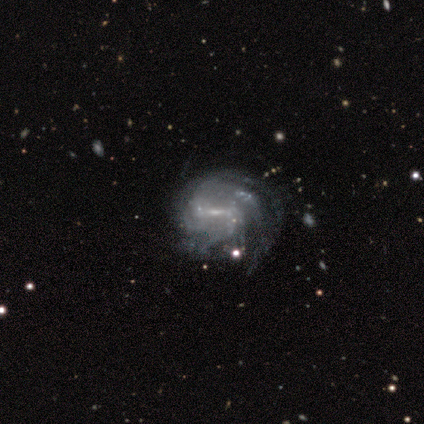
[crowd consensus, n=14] Smooth or featured? 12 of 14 (86%) said featured or disk. Edge-on disk? 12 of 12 (100%) said no. Bar? 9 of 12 (75%) said weak. Spiral arms? 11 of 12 (92%) said yes. Spiral winding? 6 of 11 (55%) said tight. Spiral arm count? 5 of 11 (45%) said can't tell. Bulge size? 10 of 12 (83%) said small. Merging? 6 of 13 (46%) said none.